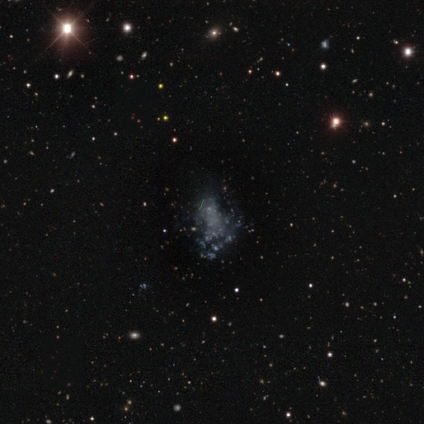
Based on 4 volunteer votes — smooth-or-featured: featured or disk: 100% | smooth: 0% | star or artifact: 0%
  disk-edge-on: no: 100% | yes: 0%
    bar: no: 75% | weak: 25% | strong: 0%
    has-spiral-arms: no: 100% | yes: 0%
    bulge-size: none: 100% | dominant: 0% | large: 0% | moderate: 0% | small: 0%
  merging: merger: 50% | none: 25% | minor disturbance: 25% | major disturbance: 0%